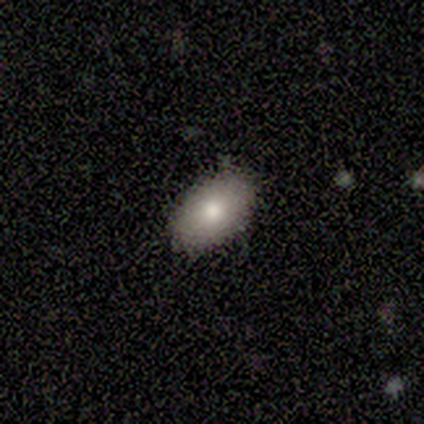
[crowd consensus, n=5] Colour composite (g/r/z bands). It shows a smooth galaxy with no disk features (80%) that is in between round and cigar-shaped (100%). Merging: none (100%).